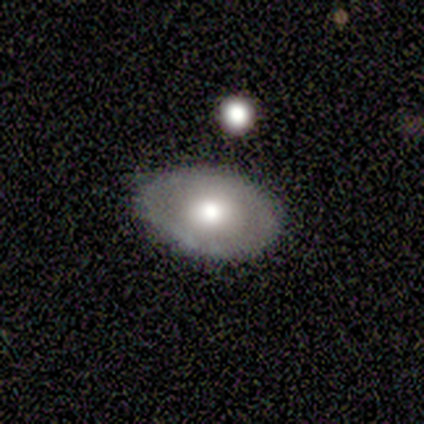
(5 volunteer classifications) Smooth or featured? 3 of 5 (60%) said smooth. How rounded? 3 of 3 (100%) said in between. Merging? 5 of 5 (100%) said none.